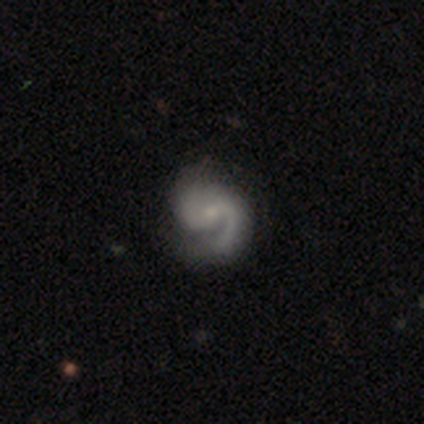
Overall: featured or disk (88%). Edge-on disk: no (100%). Bar: no (71%). Spiral arms: yes (86%). Spiral arm count: 2 (100%). Spiral winding: medium (83%). Bulge size: small (71%). Merging: none (71%).